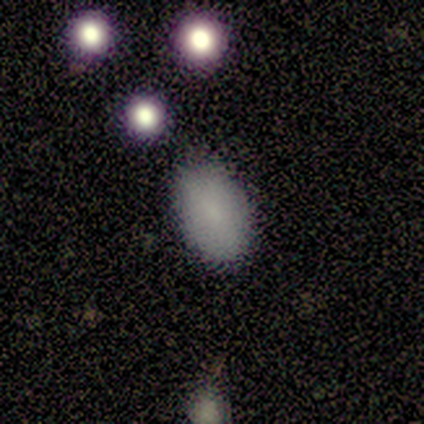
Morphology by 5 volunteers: This is clearly a smooth galaxy (100%). How rounded: clearly in between (100%). Merging: clearly none (100%).